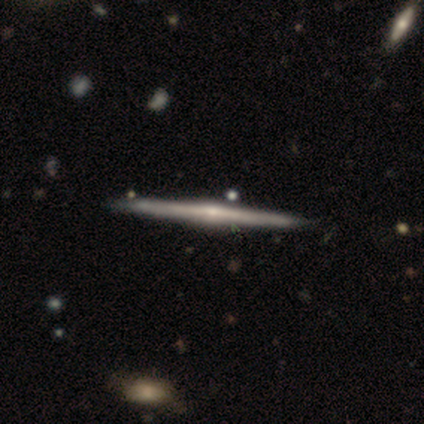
A featured or disk galaxy (75%) viewed edge-on (100%) with a rounded central bulge (67%).

Vote fractions:
- Smooth or featured? featured or disk: 75% / smooth: 25% / star or artifact: 0%
- Edge-on disk? yes: 100% / no: 0%
- Edge-on bulge? rounded: 67% / boxy: 33% / none: 0%
- Merging? none: 100% / minor disturbance: 0% / major disturbance: 0% / merger: 0%